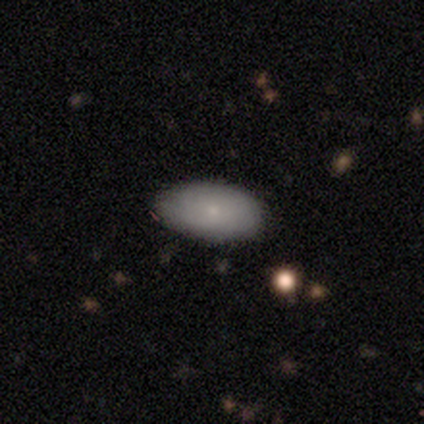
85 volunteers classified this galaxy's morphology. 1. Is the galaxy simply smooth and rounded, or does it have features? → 74% smooth, 19% featured or disk, 7% star or artifact.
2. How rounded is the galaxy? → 92% in between, 5% cigar-shaped, 3% round.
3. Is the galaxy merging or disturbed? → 82% none, 14% minor disturbance, 4% merger, 0% major disturbance.